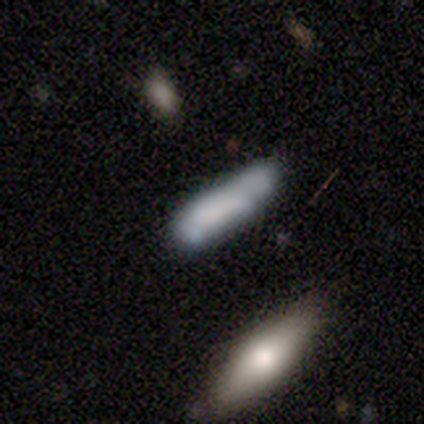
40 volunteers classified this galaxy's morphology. Smooth or featured: smooth — 68% (featured or disk — 22%)
How rounded: cigar-shaped — 74% (in between — 26%)
Merging: none — 67% (minor disturbance — 17%)